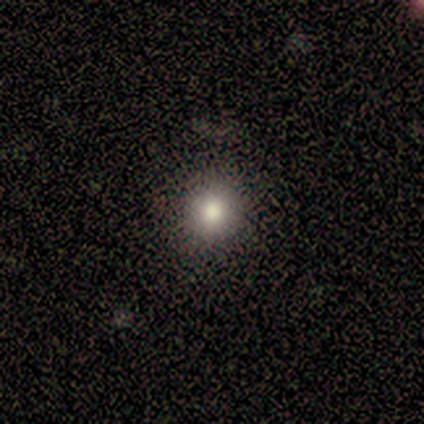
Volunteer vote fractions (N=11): smooth 82%, featured or disk 9%, star or artifact 9%. Down the decision tree: how rounded — round (100%); merging — none (100%).